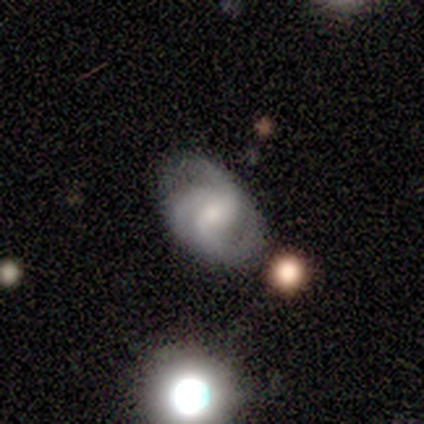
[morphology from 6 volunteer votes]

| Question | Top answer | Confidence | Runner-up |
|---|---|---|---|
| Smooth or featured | featured or disk | 83% | star or artifact (17%) |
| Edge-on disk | no | 100% | — |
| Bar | weak | 80% | no (20%) |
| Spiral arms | yes | 80% | no (20%) |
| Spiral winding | medium | 50% | tight (25%) |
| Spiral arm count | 3 | 50% | tied: can't tell (50%) |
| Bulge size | small | 80% | moderate (20%) |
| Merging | none | 100% | — |